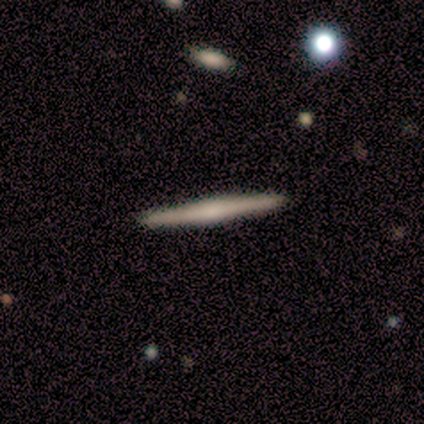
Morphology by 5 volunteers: smooth 60%, featured or disk 20%, star or artifact 20%. Down the decision tree: how rounded — cigar-shaped (100%); merging — none (75%).